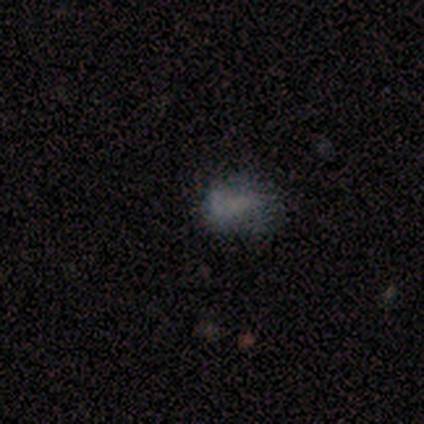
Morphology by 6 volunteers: Volunteers were most divided on "smooth or featured": star or artifact: 67%, smooth: 33%, featured or disk: 0%.